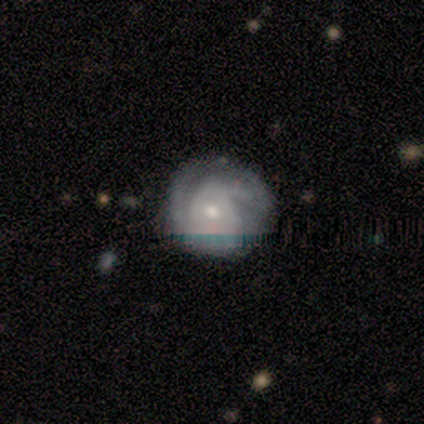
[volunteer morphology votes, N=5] Overall: featured or disk (80%). Edge-on disk: no (100%). Bar: no (75%). Spiral arms: yes (100%). Spiral arm count: can't tell (50%; 2 25%). Spiral winding: tight (100%). Bulge size: small (75%). Merging: none (100%).